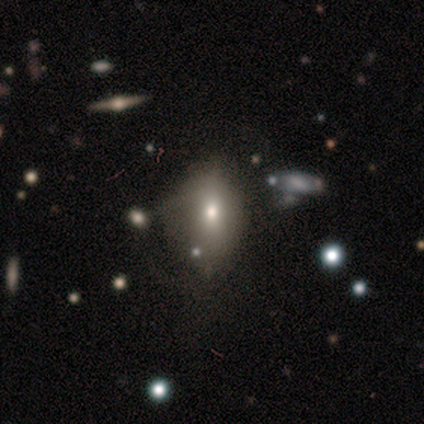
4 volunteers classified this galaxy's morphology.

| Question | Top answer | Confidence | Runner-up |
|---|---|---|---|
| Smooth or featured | smooth | 75% | featured or disk (25%) |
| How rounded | in between | 67% | round (33%) |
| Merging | none | 50% | tied: major disturbance (50%) |